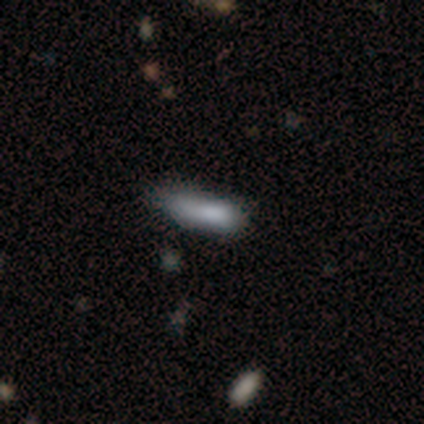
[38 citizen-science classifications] A smooth galaxy with no disk features (82%) that is cigar-shaped (74%).

Vote fractions:
- Smooth or featured? smooth: 82% / featured or disk: 13% / star or artifact: 5%
- How rounded? cigar-shaped: 74% / in between: 26% / round: 0%
- Merging? none: 47% / minor disturbance: 36% / major disturbance: 17% / merger: 0%